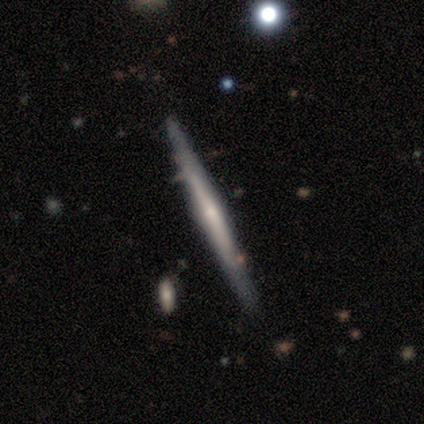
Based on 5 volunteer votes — A featured or disk galaxy (80%) viewed edge-on (100%) with a rounded central bulge (75%).

Vote fractions:
- Smooth or featured? featured or disk: 80% / smooth: 20% / star or artifact: 0%
- Edge-on disk? yes: 100% / no: 0%
- Edge-on bulge? rounded: 75% / none: 25% / boxy: 0%
- Merging? none: 80% / minor disturbance: 20% / major disturbance: 0% / merger: 0%